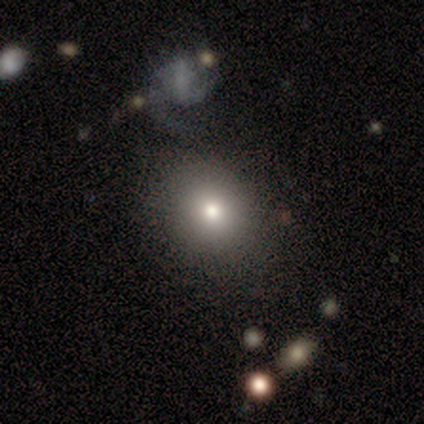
Smooth or featured: smooth — 60% (featured or disk — 20%)
How rounded: round — 100%
Merging: none — 100%